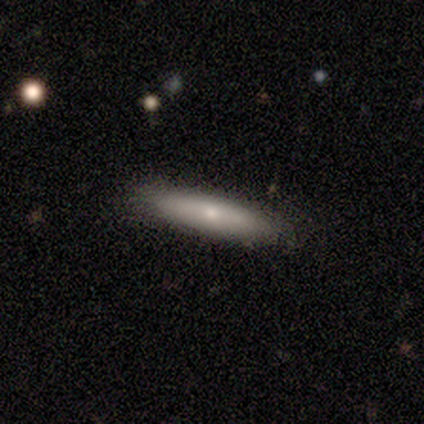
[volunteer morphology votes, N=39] Smooth or featured? 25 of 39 (64%) said smooth. How rounded? 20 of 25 (80%) said cigar-shaped. Merging? 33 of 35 (94%) said none.